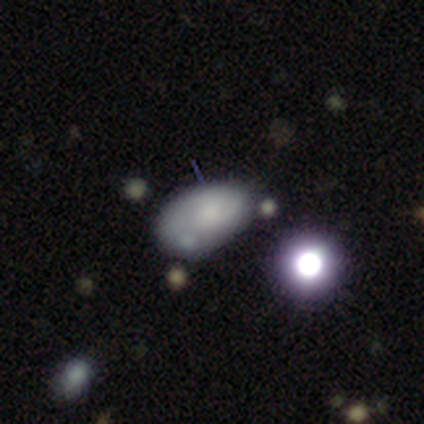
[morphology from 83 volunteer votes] A smooth galaxy with no disk features (61%) that is in between round and cigar-shaped (86%).

Vote fractions:
- Smooth or featured? smooth: 61% / featured or disk: 23% / star or artifact: 16%
- How rounded? in between: 86% / round: 14% / cigar-shaped: 0%
- Merging? none: 36% / minor disturbance: 31% / merger: 19% / major disturbance: 14%